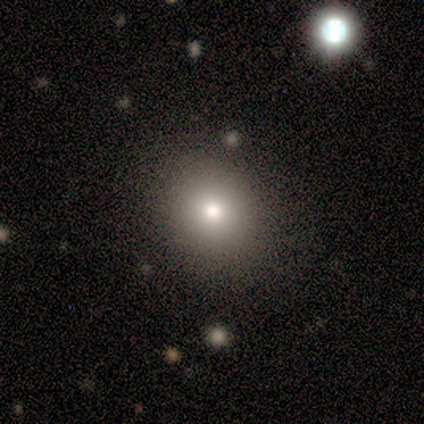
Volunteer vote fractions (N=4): Overall: smooth (50%; featured or disk 25%). How rounded: round (50%, tied with in between). Merging: none (67%; minor disturbance 33%).